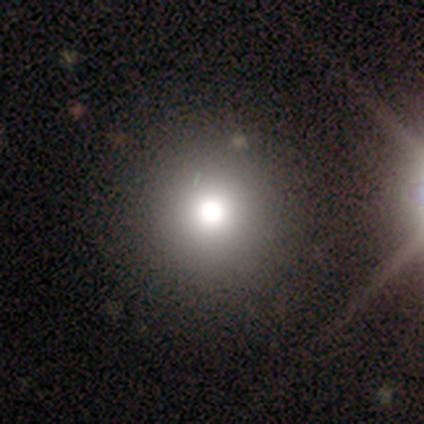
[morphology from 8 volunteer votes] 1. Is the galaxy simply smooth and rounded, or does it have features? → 62% smooth, 25% star or artifact, 12% featured or disk.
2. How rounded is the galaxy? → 100% round, 0% in between, 0% cigar-shaped.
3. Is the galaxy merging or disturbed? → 100% none, 0% minor disturbance, 0% major disturbance, 0% merger.